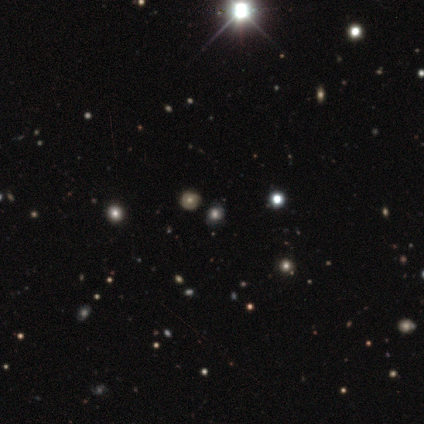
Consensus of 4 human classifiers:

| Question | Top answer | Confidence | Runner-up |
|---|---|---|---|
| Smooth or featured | star or artifact | 75% | smooth (25%) |